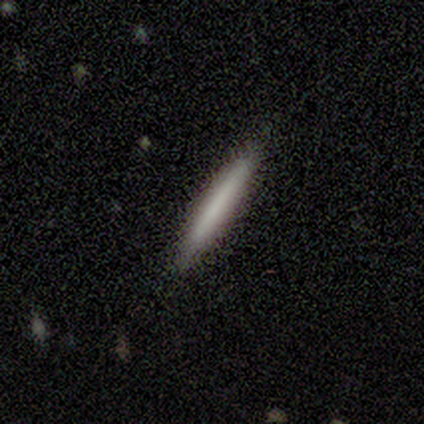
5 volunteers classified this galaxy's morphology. Q: Smooth or featured?
A: smooth (80%); runner-up: featured or disk (20%)
Q: How rounded?
A: cigar-shaped (100%)
Q: Merging?
A: none (100%)